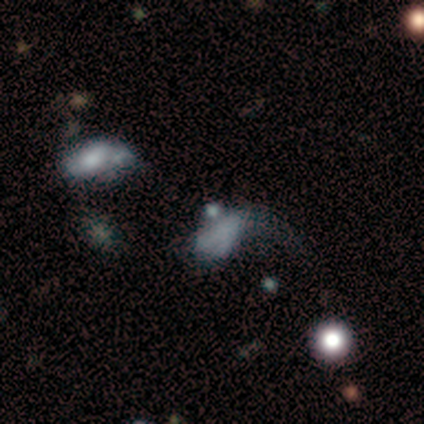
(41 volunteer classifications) Smooth or featured? 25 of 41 (61%) said smooth. How rounded? 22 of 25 (88%) said in between. Merging? 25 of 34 (74%) said major disturbance.